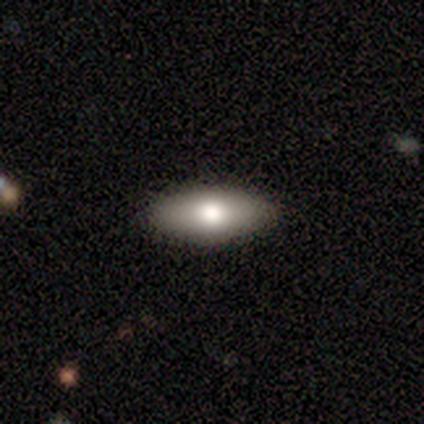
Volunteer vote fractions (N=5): Morphology: type=smooth (80%); roundness=in between (100%); merging=none (100%).